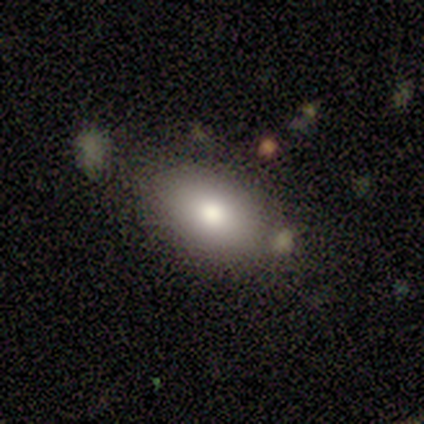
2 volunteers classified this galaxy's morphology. Smooth or featured? 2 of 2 (100%) said smooth. How rounded? 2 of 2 (100%) said in between. Merging? 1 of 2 (50%, tied with merger) said none.